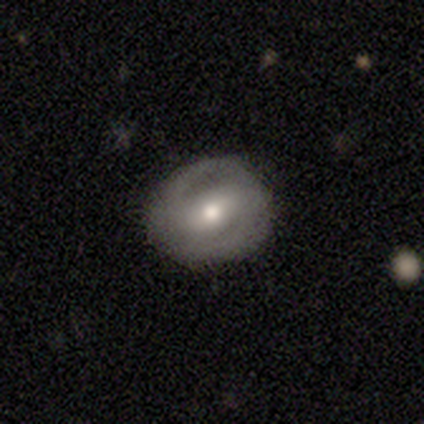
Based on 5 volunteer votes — Smooth or featured? 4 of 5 (80%) said featured or disk. Edge-on disk? 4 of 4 (100%) said no. Bar? 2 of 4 (50%) said no. Spiral arms? 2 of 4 (50%, tied with no) said yes. Spiral winding? 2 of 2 (100%) said medium. Spiral arm count? 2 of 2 (100%) said 2. Bulge size? 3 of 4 (75%) said moderate. Merging? 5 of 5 (100%) said none.